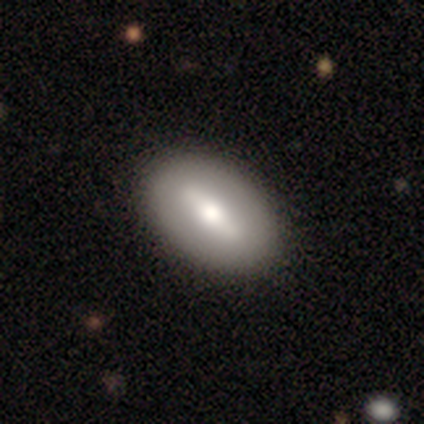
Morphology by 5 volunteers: Smooth or featured? featured or disk (80%)
Edge-on disk? yes (50%, tied with no)
Edge-on bulge? none (50%, tied with rounded)
Merging? none (100%)